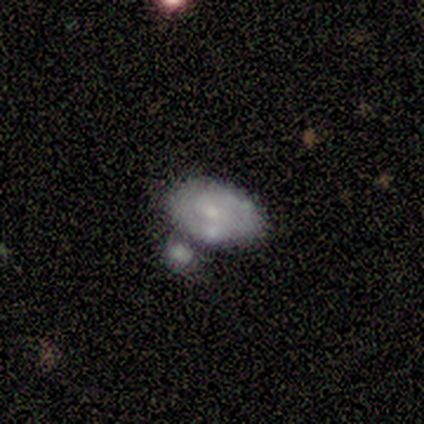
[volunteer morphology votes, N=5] This is clearly a featured or disk galaxy (80%). It is clearly not viewed edge-on (100%). Bar: possibly weak (50%, tied with no). Spiral arm pattern: clearly yes (100%). Spiral arm count: likely can't tell (75%). Spiral winding: possibly tight (50%). Central bulge: clearly small (100%). Merging: likely none (60%).